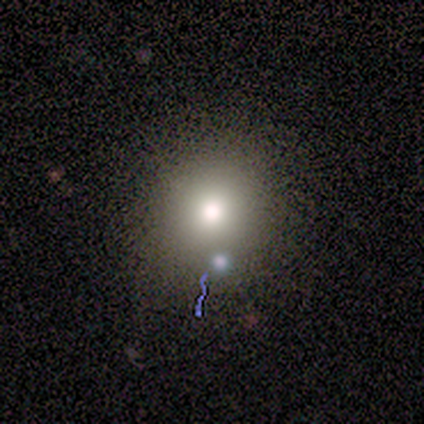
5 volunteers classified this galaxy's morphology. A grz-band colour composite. It shows a smooth galaxy with no disk features (40%, tied with featured or disk) that is round (100%). Merging: minor disturbance (50%).